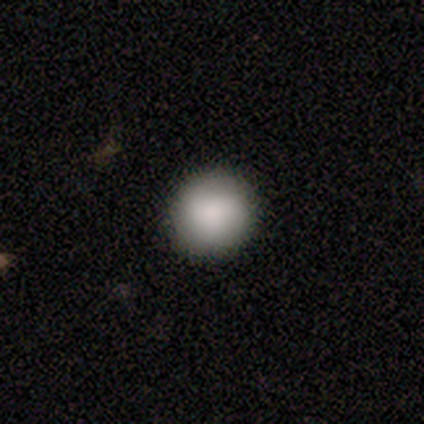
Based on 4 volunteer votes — Smooth or featured?
  - smooth: 100% *
  - featured or disk: 0%
  - star or artifact: 0%
How rounded?
  - round: 100% *
  - in between: 0%
  - cigar-shaped: 0%
Merging?
  - none: 50% *
  - minor disturbance: 25%
  - major disturbance: 25%
  - merger: 0%